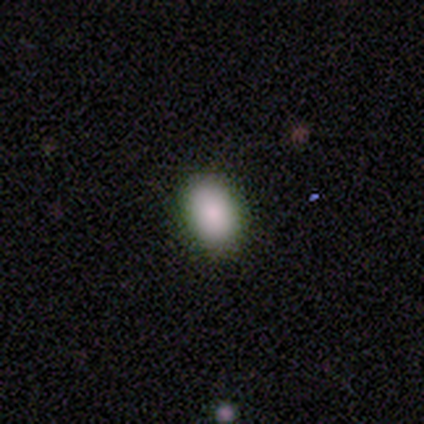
Smooth or featured?
  - smooth: 80% *
  - featured or disk: 20%
  - star or artifact: 0%
How rounded?
  - in between: 75% *
  - round: 25%
  - cigar-shaped: 0%
Merging?
  - none: 80% *
  - minor disturbance: 20%
  - major disturbance: 0%
  - merger: 0%